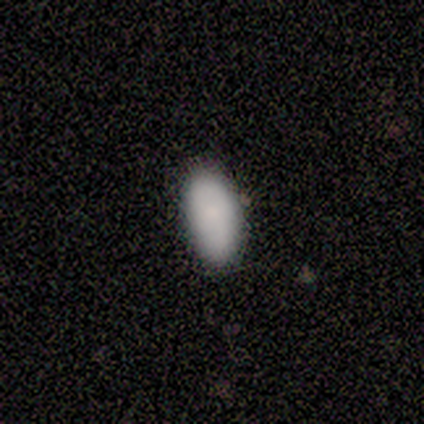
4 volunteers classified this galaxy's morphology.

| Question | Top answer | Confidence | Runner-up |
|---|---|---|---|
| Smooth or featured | smooth | 100% | — |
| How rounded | in between | 100% | — |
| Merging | none | 100% | — |